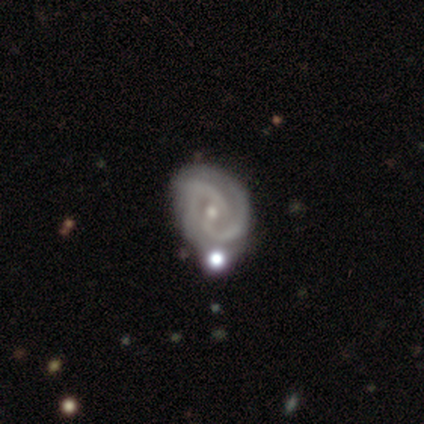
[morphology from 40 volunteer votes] A featured or disk galaxy (85%) with no bar (50%), 2 (74%) tight (41%, tied with medium) spiral arms (100%) and a small central bulge (59%). Merging: none (49%).